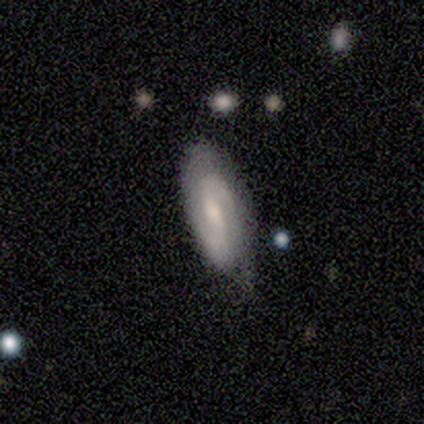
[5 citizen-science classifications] Smooth or featured? 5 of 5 (100%) said featured or disk. Edge-on disk? 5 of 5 (100%) said no. Bar? 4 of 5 (80%) said strong. Spiral arms? 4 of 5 (80%) said yes. Spiral winding? 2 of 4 (50%, tied with medium) said tight. Spiral arm count? 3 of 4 (75%) said 2. Bulge size? 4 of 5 (80%) said moderate. Merging? 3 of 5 (60%) said none.